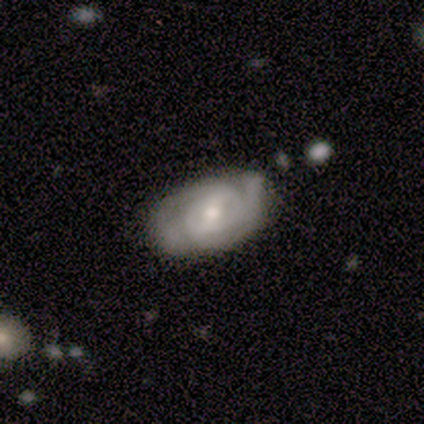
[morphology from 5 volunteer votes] type=featured or disk (100%); edge-on=no (100%); bar=weak (80%); spiral arms=yes (100%); winding=medium (60%); arm count=2 (80%); bulge=moderate (60%); merging=none (100%).